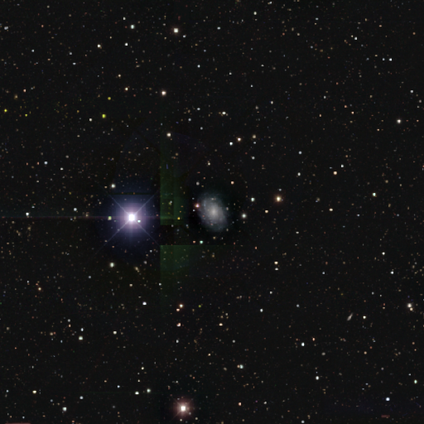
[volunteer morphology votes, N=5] This is clearly a featured or disk galaxy (80%). It is clearly not viewed edge-on (100%). Bar: clearly no (100%). Spiral arm pattern: clearly yes (100%). Spiral arm count: clearly can't tell (100%). Spiral winding: possibly tight (50%, tied with medium). Central bulge: possibly moderate (50%, tied with small). Merging: clearly none (100%).